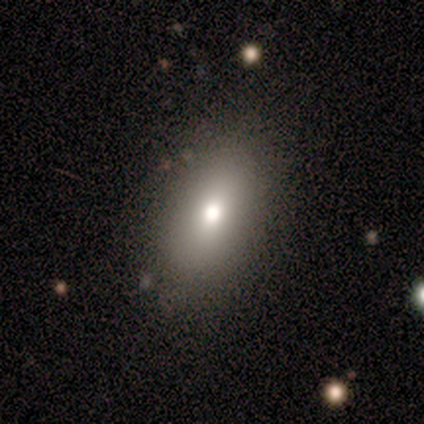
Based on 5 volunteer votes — Q: Smooth or featured?
A: smooth (60%); runner-up: featured or disk (40%)
Q: How rounded?
A: in between (67%); runner-up: cigar-shaped (33%)
Q: Merging?
A: none (80%); runner-up: minor disturbance (20%)